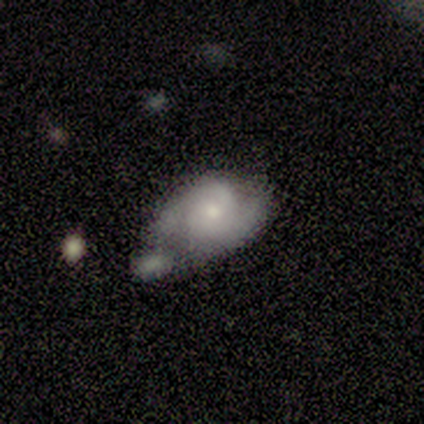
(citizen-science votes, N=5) Smooth or featured?
  - featured or disk: 60% *
  - smooth: 40%
  - star or artifact: 0%
Edge-on disk?
  - no: 100% *
  - yes: 0%
Bar?
  - no: 67% *
  - weak: 33%
  - strong: 0%
Spiral arms?
  - yes: 100% *
  - no: 0%
Spiral winding?
  - medium: 100% *
  - tight: 0%
  - loose: 0%
Spiral arm count?
  - 2: 67% *
  - can't tell: 33%
  - 1: 0%
  - 3: 0%
  - 4: 0%
  - more than 4: 0%
Bulge size?
  - small: 67% *
  - moderate: 33%
  - dominant: 0%
  - large: 0%
  - none: 0%
Merging?
  - minor disturbance: 40% *
  - none: 20%
  - major disturbance: 20%
  - merger: 20%